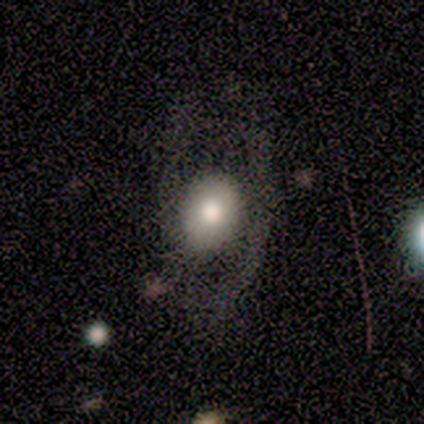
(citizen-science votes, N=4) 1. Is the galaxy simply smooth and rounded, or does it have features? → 50% smooth (tied), 50% featured or disk (tied), 0% star or artifact.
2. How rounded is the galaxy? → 100% round, 0% in between, 0% cigar-shaped.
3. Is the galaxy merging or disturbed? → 75% none, 25% minor disturbance, 0% major disturbance, 0% merger.